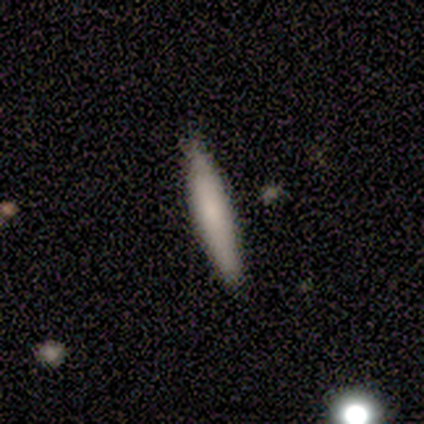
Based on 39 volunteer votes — smooth 74%, featured or disk 15%, star or artifact 10%. Down the decision tree: how rounded — cigar-shaped (97%); merging — none (97%).